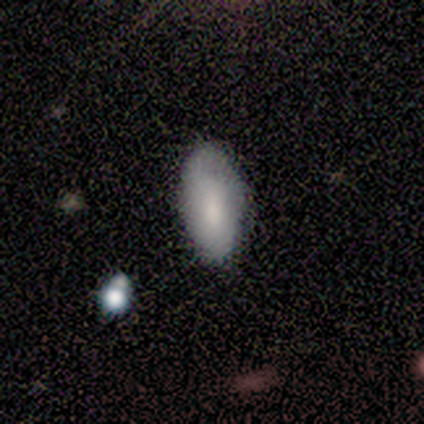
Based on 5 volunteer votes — smooth-or-featured: smooth: 100% | featured or disk: 0% | star or artifact: 0%
  how-rounded: in between: 80% | cigar-shaped: 20% | round: 0%
  merging: minor disturbance: 40% (tied) | merger: 40% (tied) | none: 20% | major disturbance: 0%